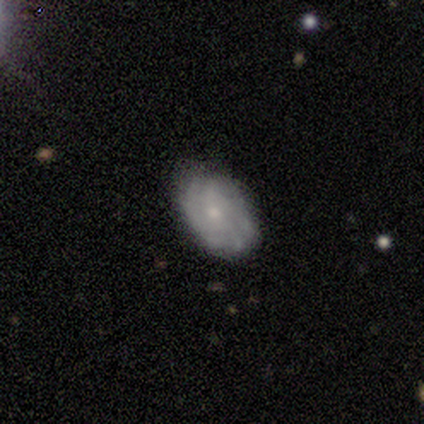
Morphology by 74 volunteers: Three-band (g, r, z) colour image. It shows a featured or disk galaxy (70%) with no bar (80%), tight (59%) spiral arms (78%) and a small central bulge (46%). Merging: none (61%).